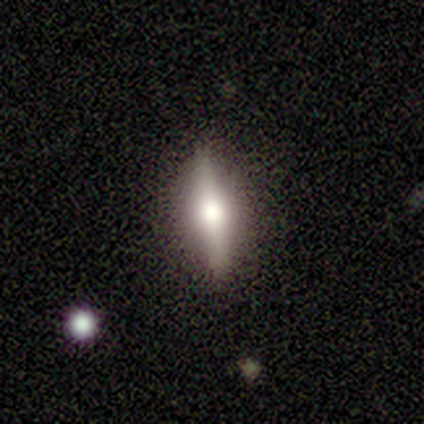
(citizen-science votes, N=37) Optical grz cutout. It shows a featured or disk galaxy (65%) viewed edge-on (100%) with a rounded central bulge (96%). Merging: none (85%).